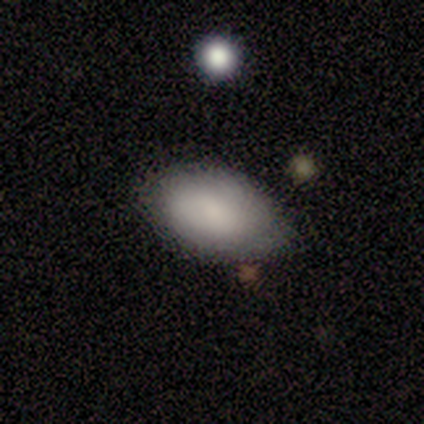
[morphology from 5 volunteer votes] This appears to be a smooth galaxy with no disk features (80%) that is in between round and cigar-shaped (100%). Merging: none (75%).